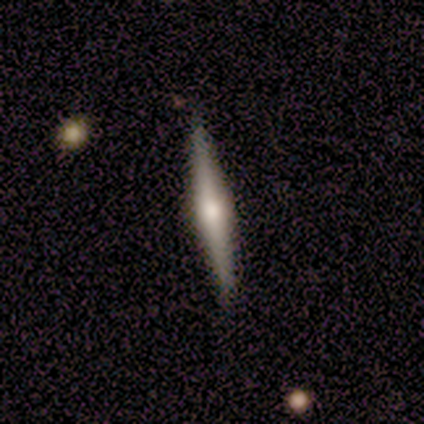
Q: Smooth or featured?
A: featured or disk (80%); runner-up: smooth (20%)
Q: Edge-on disk?
A: yes (100%)
Q: Edge-on bulge?
A: rounded (76%); runner-up: boxy (18%)
Q: Merging?
A: none (95%); runner-up: minor disturbance (2%)